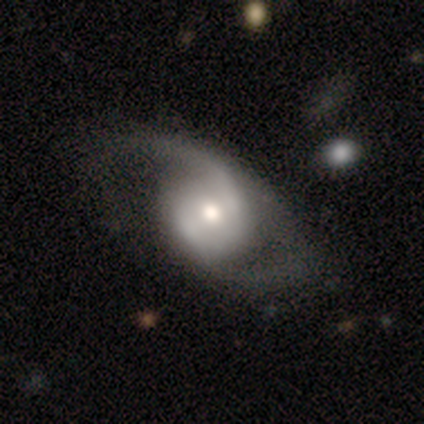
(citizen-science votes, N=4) Smooth or featured? featured or disk (75%)
Edge-on disk? no (100%)
Bar? weak (67%)
Spiral arms? yes (100%)
Spiral winding? medium (67%)
Spiral arm count? 2 (100%)
Bulge size? moderate (67%)
Merging? minor disturbance (50%)